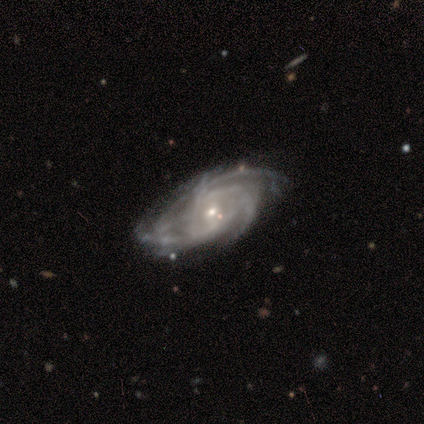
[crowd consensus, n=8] A featured or disk galaxy (88%) with a weak bar (67%), tight (83%) spiral arms (100%) and a small central bulge (83%).

Vote fractions:
- Smooth or featured? featured or disk: 88% / smooth: 12% / star or artifact: 0%
- Edge-on disk? no: 86% / yes: 14%
- Bar? weak: 67% / no: 33% / strong: 0%
- Spiral arms? yes: 100% / no: 0%
- Spiral winding? tight: 83% / medium: 17% / loose: 0%
- Spiral arm count? can't tell: 50% / 3: 33% / 4: 17% / 1: 0% / 2: 0% / more than 4: 0%
- Bulge size? small: 83% / moderate: 17% / dominant: 0% / large: 0% / none: 0%
- Merging? none: 62% / minor disturbance: 25% / major disturbance: 12% / merger: 0%